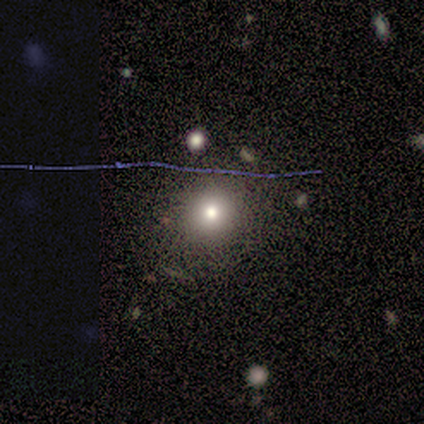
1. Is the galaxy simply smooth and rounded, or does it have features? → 78% smooth, 11% featured or disk, 11% star or artifact.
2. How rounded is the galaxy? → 86% round, 14% in between, 0% cigar-shaped.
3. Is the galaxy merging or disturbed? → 75% none, 25% major disturbance, 0% minor disturbance, 0% merger.